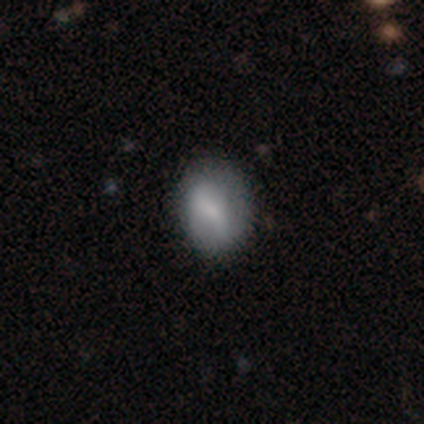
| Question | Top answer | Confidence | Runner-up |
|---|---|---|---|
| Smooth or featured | featured or disk | 60% | smooth (40%) |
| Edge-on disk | no | 100% | — |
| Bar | strong | 67% | weak (33%) |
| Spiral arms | yes | 67% | no (33%) |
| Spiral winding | tight | 100% | — |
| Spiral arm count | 2 | 100% | — |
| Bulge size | moderate | 33% | tied: small (33%), none (33%) |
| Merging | none | 80% | major disturbance (20%) |